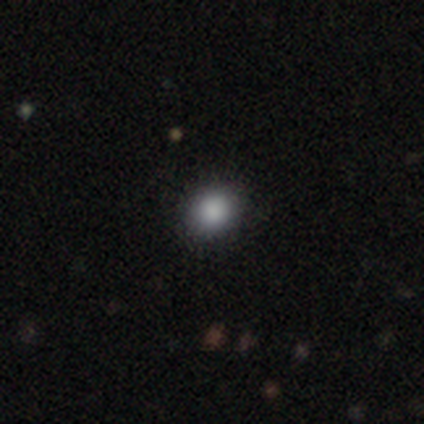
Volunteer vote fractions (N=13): Smooth or featured? 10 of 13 (77%) said smooth. How rounded? 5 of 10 (50%, tied with in between) said round. Merging? 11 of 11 (100%) said none.